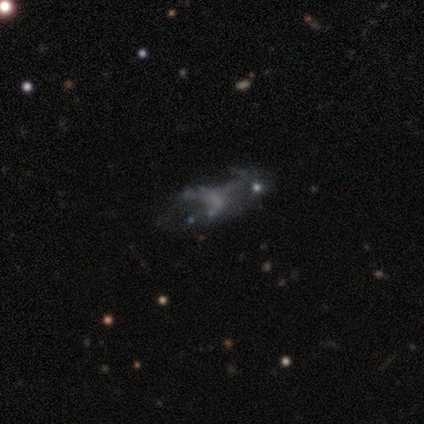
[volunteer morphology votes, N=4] Q: Smooth or featured?
A: featured or disk (50%); tied with: star or artifact (50%)
Q: Edge-on disk?
A: no (100%)
Q: Bar?
A: no (100%)
Q: Spiral arms?
A: no (100%)
Q: Bulge size?
A: none (100%)
Q: Merging?
A: major disturbance (100%)